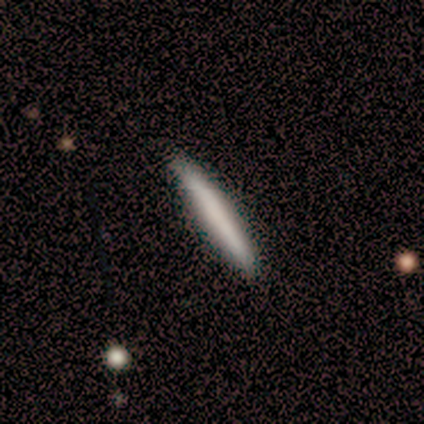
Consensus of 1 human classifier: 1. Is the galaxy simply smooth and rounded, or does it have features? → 100% smooth, 0% featured or disk, 0% star or artifact.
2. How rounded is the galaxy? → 100% cigar-shaped, 0% round, 0% in between.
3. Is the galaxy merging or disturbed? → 100% none, 0% minor disturbance, 0% major disturbance, 0% merger.